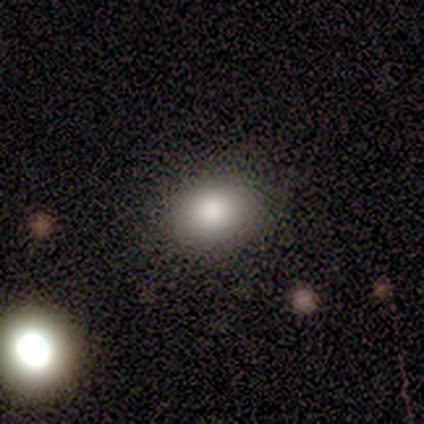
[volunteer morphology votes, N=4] smooth 50%, featured or disk 25%, star or artifact 25%. Down the decision tree: how rounded — round (50%, tied with in between); merging — none (100%).